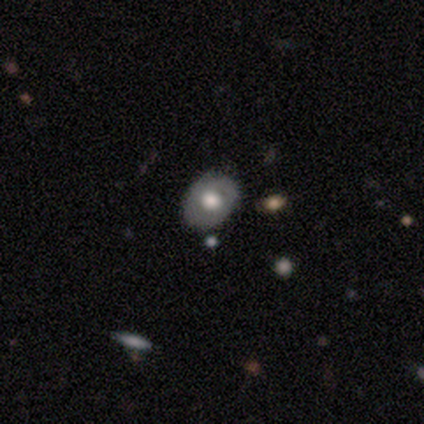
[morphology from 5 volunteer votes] A smooth galaxy with no disk features (60%) that is in between round and cigar-shaped (67%). Merging: none (100%).